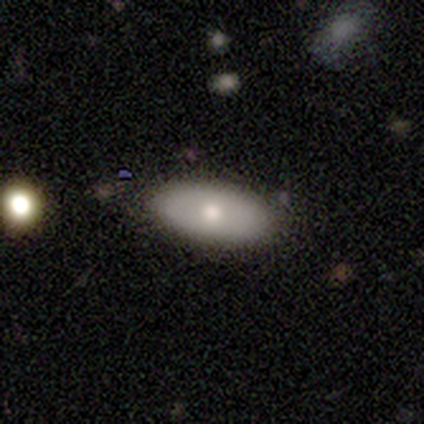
A smooth galaxy with no disk features (100%) that is in between round and cigar-shaped (100%). Merging: none (80%).